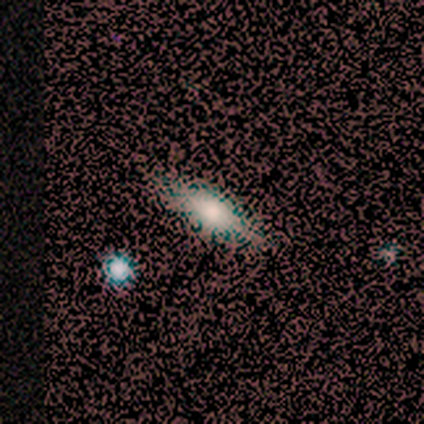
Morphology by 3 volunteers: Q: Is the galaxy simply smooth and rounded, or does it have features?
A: smooth — 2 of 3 (67%).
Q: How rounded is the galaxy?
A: in between — 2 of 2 (100%).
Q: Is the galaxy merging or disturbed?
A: minor disturbance — 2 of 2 (100%).